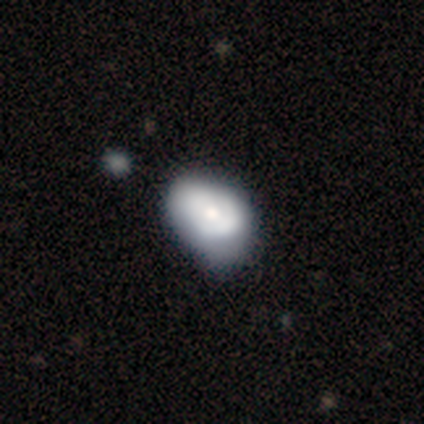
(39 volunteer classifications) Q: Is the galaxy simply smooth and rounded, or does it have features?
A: featured or disk — 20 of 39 (51%).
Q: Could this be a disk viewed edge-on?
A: no — 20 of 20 (100%).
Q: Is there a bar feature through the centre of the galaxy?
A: no — 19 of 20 (95%).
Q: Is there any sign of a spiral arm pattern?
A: no — 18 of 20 (90%).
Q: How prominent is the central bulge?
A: moderate — 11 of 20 (55%).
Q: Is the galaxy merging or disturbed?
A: minor disturbance — 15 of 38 (39%).